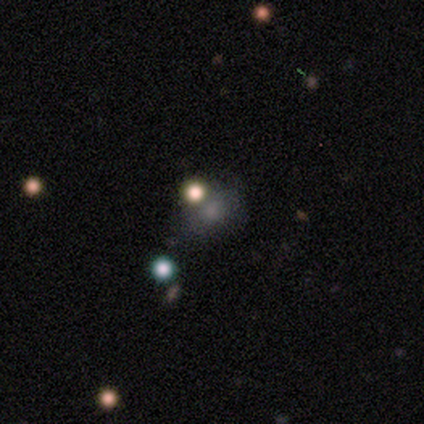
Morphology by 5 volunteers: Volunteers were most divided on "merging" (4-way tie): none: 25%, minor disturbance: 25%, major disturbance: 25%, merger: 25%. More confident: how rounded — round (100%); smooth or featured — smooth (60%).